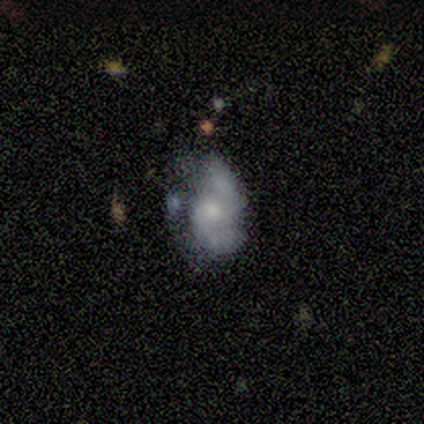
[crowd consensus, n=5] This is likely a smooth galaxy (60%). How rounded: clearly in between (100%). Merging: likely minor disturbance (60%).